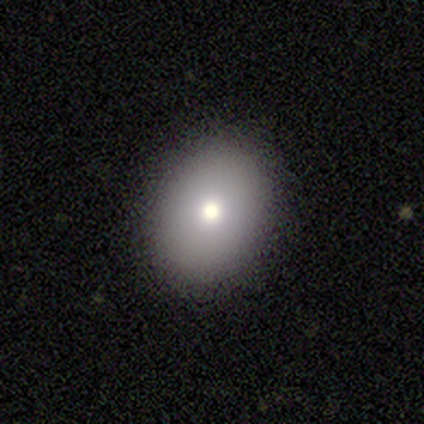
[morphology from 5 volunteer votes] This appears to be a smooth galaxy with no disk features (100%) that is in between round and cigar-shaped (80%). Merging: none (80%).